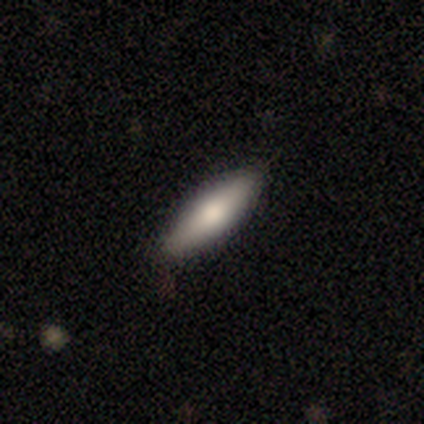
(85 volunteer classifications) smooth-or-featured: smooth: 76% | featured or disk: 16% | star or artifact: 7%
  how-rounded: cigar-shaped: 63% | in between: 37% | round: 0%
  merging: none: 84% | minor disturbance: 11% | merger: 4% | major disturbance: 1%